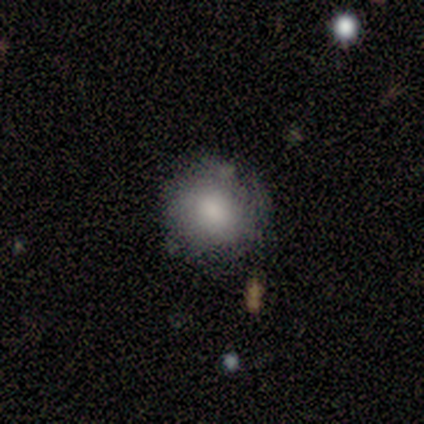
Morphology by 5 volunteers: Q: Smooth or featured?
A: smooth (80%); runner-up: featured or disk (20%)
Q: How rounded?
A: round (75%); runner-up: in between (25%)
Q: Merging?
A: none (100%)